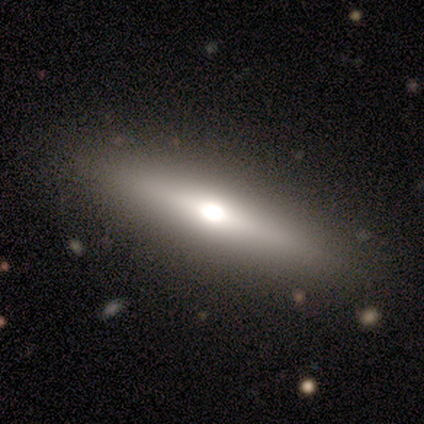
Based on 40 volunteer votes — Q: Smooth or featured?
A: featured or disk (75%); runner-up: smooth (22%)
Q: Edge-on disk?
A: yes (97%); runner-up: no (3%)
Q: Edge-on bulge?
A: rounded (83%); runner-up: boxy (10%)
Q: Merging?
A: none (92%); runner-up: minor disturbance (8%)